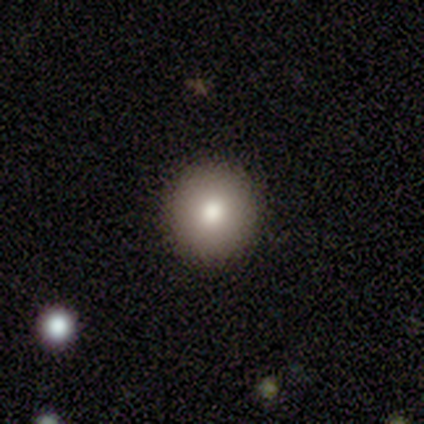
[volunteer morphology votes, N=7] Smooth or featured? smooth (71%)
How rounded? round (100%)
Merging? none (86%)